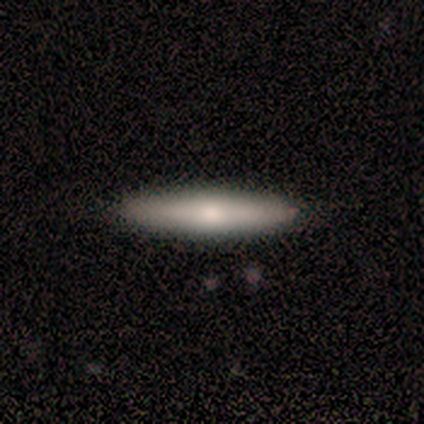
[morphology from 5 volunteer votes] type=smooth (80%); roundness=cigar-shaped (75%); merging=none (100%).